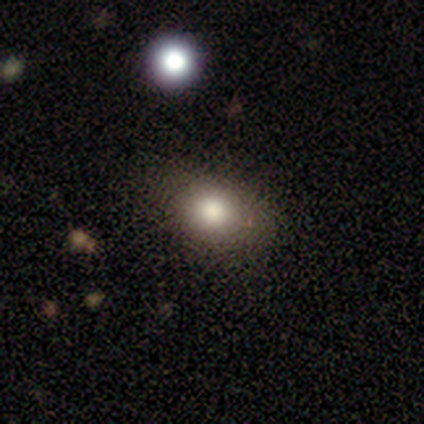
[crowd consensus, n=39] Smooth or featured: smooth — 85% (star or artifact — 10%)
How rounded: in between — 67% (round — 33%)
Merging: none — 60% (minor disturbance — 6%)